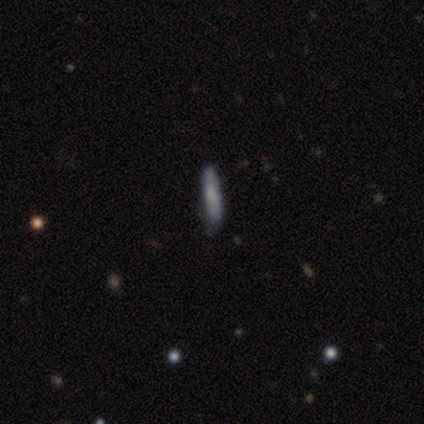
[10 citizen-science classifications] Overall: smooth (70%). How rounded: cigar-shaped (86%). Merging: none (89%).